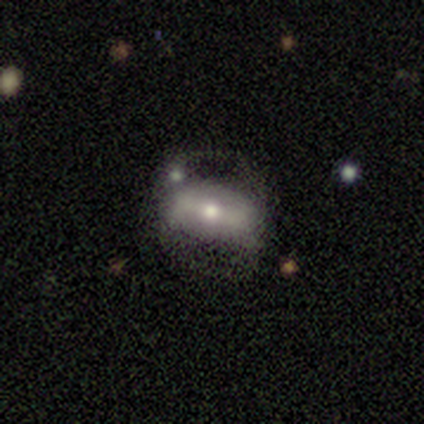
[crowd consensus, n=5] A featured or disk galaxy (80%) viewed edge-on (50%, tied with no) with a rounded central bulge (100%). Merging: none (60%).